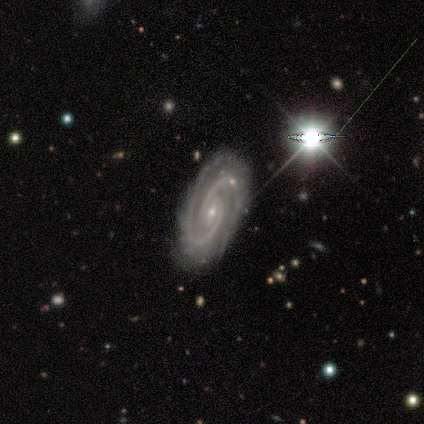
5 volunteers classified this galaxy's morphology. featured or disk 80%, star or artifact 20%, smooth 0%. Down the decision tree: edge-on disk — no (100%); bar — no (50%); spiral arms — yes (100%); spiral arm count — 2 (100%); spiral winding — tight (75%); bulge size — small (100%); merging — none (50%, tied with minor disturbance).